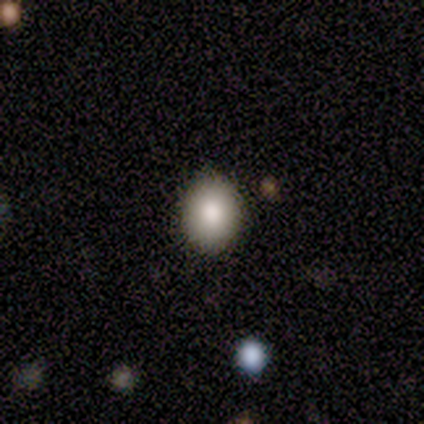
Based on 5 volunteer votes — A smooth galaxy with no disk features (80%) that is round (50%, tied with in between). Merging: none (100%).